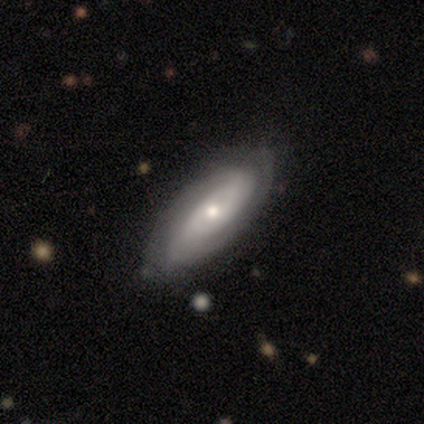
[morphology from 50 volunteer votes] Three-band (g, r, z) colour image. It shows a featured or disk galaxy (66%) with no bar (69%), tight (73%) spiral arms (90%) and a small central bulge (55%). Merging: none (83%).